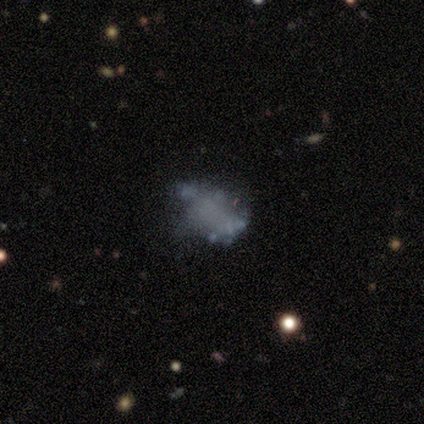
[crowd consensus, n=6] Morphology: type=featured or disk (100%); edge-on=no (100%); bar=no (100%); spiral arms=no (100%); bulge=none (100%); merging=none (50%).